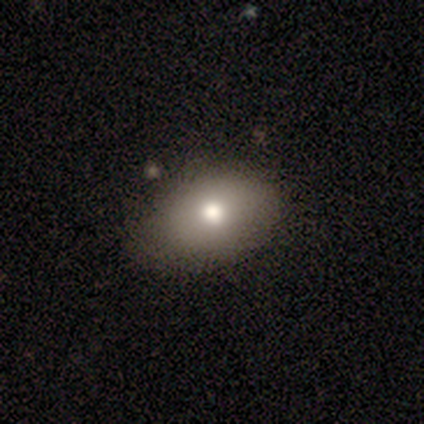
Q: Smooth or featured?
A: smooth (80%); runner-up: featured or disk (20%)
Q: How rounded?
A: in between (75%); runner-up: cigar-shaped (25%)
Q: Merging?
A: none (60%); runner-up: minor disturbance (40%)